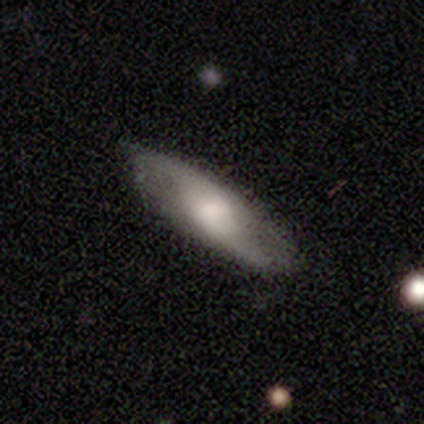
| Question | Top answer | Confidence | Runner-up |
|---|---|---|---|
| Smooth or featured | featured or disk | 67% | smooth (33%) |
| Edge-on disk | no | 85% | yes (15%) |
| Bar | no | 73% | weak (23%) |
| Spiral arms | yes | 86% | no (14%) |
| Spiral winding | loose | 79% | medium (16%) |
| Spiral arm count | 2 | 95% | can't tell (5%) |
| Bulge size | large | 36% | tied: moderate (36%) |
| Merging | none | 67% | minor disturbance (33%) |